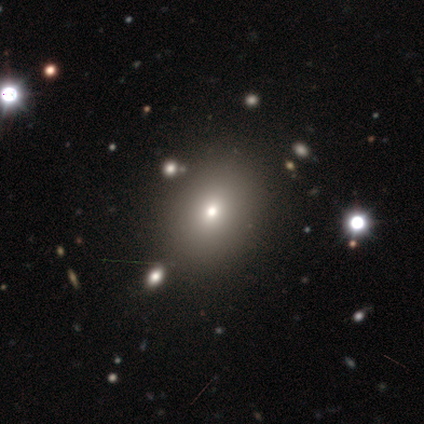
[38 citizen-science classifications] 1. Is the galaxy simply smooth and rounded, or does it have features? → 63% smooth, 21% star or artifact, 16% featured or disk.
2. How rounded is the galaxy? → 54% round, 46% in between, 0% cigar-shaped.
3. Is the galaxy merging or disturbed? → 73% none, 17% major disturbance, 10% minor disturbance, 0% merger.